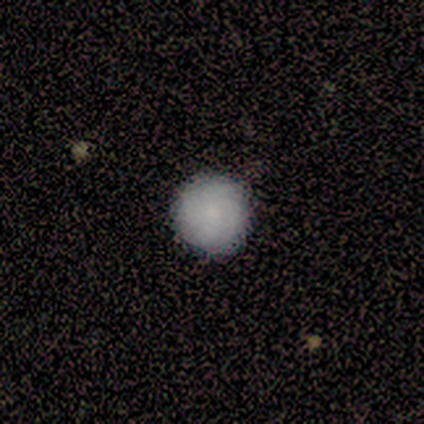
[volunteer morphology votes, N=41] Smooth or featured? 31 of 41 (76%) said smooth. How rounded? 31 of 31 (100%) said round. Merging? 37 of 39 (95%) said none.